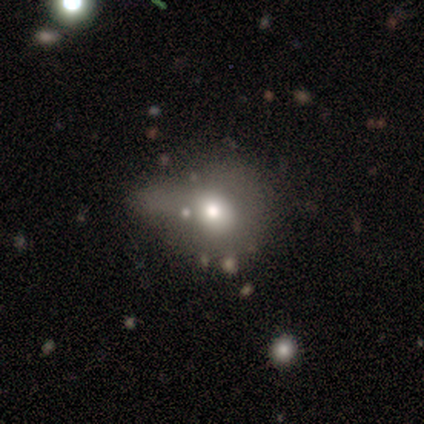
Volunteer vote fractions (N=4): Smooth or featured: star or artifact — 50% (smooth — 25%)